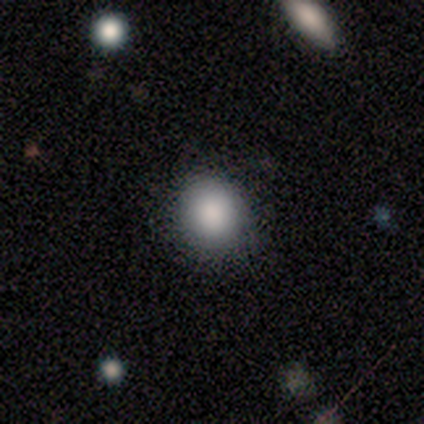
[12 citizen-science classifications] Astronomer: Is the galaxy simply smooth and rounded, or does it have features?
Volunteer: smooth — 100%.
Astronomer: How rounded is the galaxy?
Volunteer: round — 83%.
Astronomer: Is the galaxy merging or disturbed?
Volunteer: none — 100%.